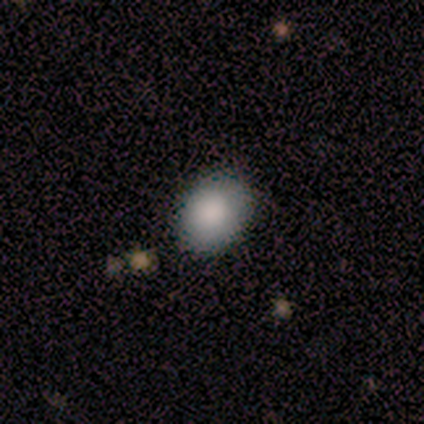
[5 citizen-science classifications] A smooth galaxy with no disk features (80%) that is in between round and cigar-shaped (75%). Merging: none (80%).